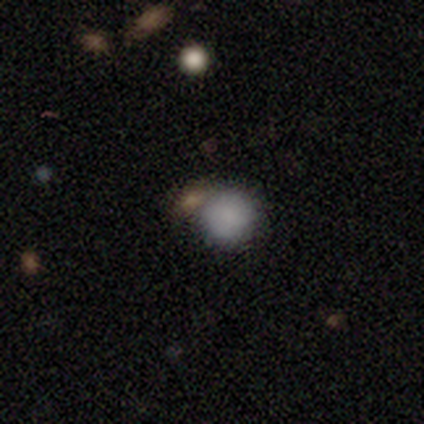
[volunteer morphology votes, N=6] A smooth galaxy with no disk features (100%) that is round (83%).

Vote fractions:
- Smooth or featured? smooth: 100% / featured or disk: 0% / star or artifact: 0%
- How rounded? round: 83% / in between: 17% / cigar-shaped: 0%
- Merging? none: 67% / minor disturbance: 17% / merger: 17% / major disturbance: 0%